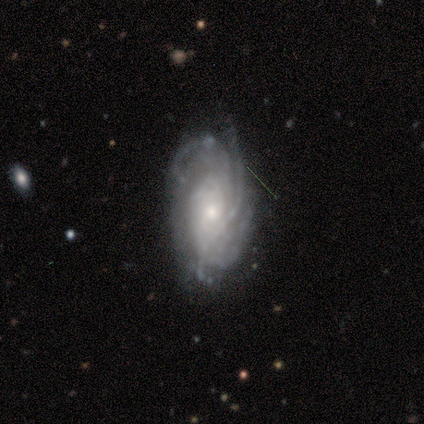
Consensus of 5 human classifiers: Smooth or featured: featured or disk — 100%
Edge-on disk: no — 80% (yes — 20%)
Bar: no — 100%
Spiral arms: yes — 100%
Spiral winding: tight — 50% (tied with loose — 50%)
Spiral arm count: can't tell — 75% (3 — 25%)
Bulge size: small — 75% (moderate — 25%)
Merging: none — 60% (minor disturbance — 20%)